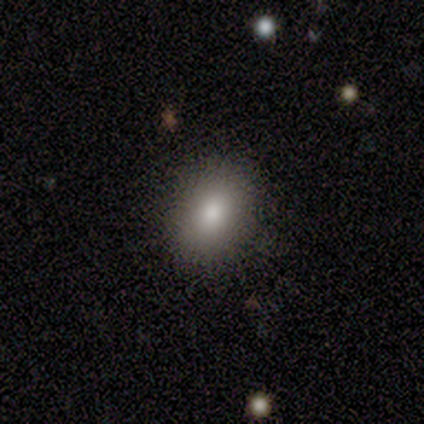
This is clearly a smooth galaxy (100%). How rounded: likely round (75%). Merging: clearly none (88%).